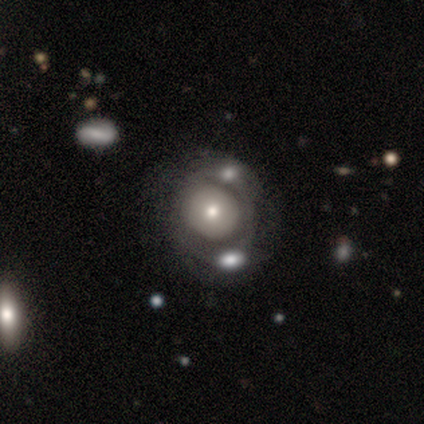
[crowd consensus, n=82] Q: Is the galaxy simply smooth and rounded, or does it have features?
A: featured or disk — 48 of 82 (59%).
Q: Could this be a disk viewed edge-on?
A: no — 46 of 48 (96%).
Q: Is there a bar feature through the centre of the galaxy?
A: no — 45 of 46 (98%).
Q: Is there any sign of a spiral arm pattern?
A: no — 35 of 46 (76%).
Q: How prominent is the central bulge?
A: moderate — 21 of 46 (46%).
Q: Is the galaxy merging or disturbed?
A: merger — 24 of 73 (33%).